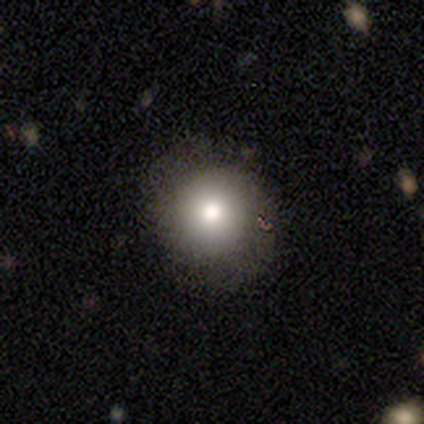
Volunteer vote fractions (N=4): smooth_or_featured: smooth (p=0.50) [alt: featured or disk p=0.25]
how_rounded: round (p=1.00)
merging: none (p=1.00)